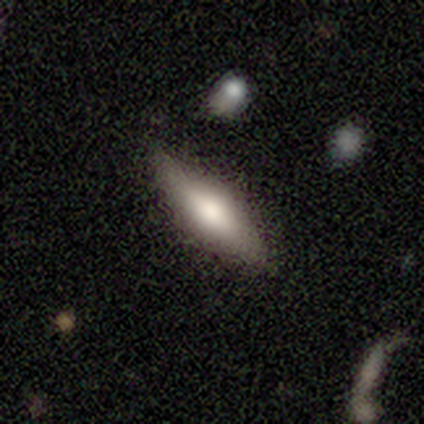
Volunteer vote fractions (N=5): Volunteers were most divided on "smooth or featured": featured or disk: 60%, smooth: 40%, star or artifact: 0%. More confident: edge-on disk — yes (100%); edge-on bulge — rounded (100%); merging — none (60%).